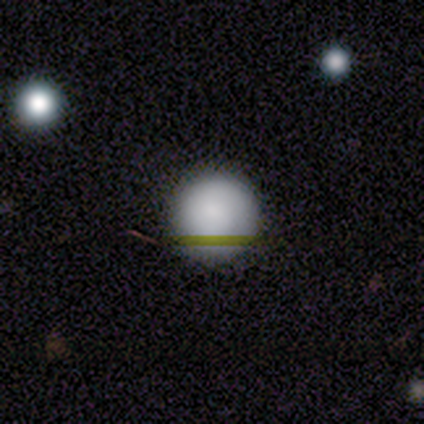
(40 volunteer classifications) smooth 85%, star or artifact 12%, featured or disk 2%. Down the decision tree: how rounded — round (91%); merging — none (86%).